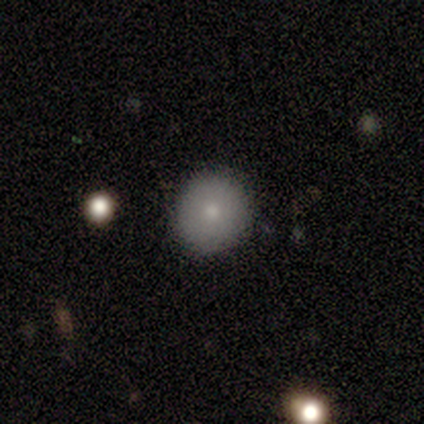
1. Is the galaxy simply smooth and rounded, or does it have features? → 73% smooth, 18% featured or disk, 9% star or artifact.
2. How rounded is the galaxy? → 100% round, 0% in between, 0% cigar-shaped.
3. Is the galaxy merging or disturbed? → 90% none, 10% minor disturbance, 0% major disturbance, 0% merger.